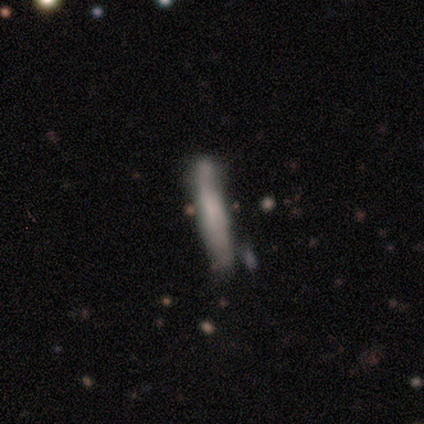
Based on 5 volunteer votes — Smooth or featured: smooth — 80% (featured or disk — 20%)
How rounded: cigar-shaped — 100%
Merging: minor disturbance — 60% (none — 40%)